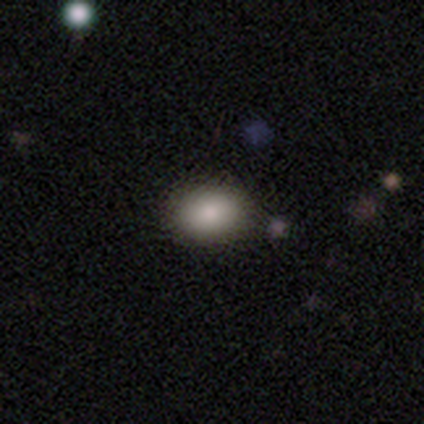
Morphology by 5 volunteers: smooth-or-featured: smooth: 100% | featured or disk: 0% | star or artifact: 0%
  how-rounded: in between: 80% | round: 20% | cigar-shaped: 0%
  merging: none: 100% | minor disturbance: 0% | major disturbance: 0% | merger: 0%